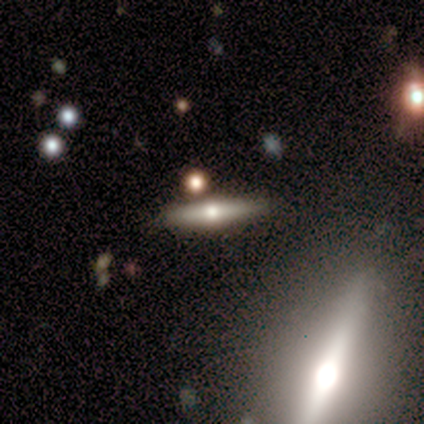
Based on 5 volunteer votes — Morphology: type=featured or disk (80%); edge-on=yes (100%); edge-on bulge=rounded (100%); merging=none (100%).